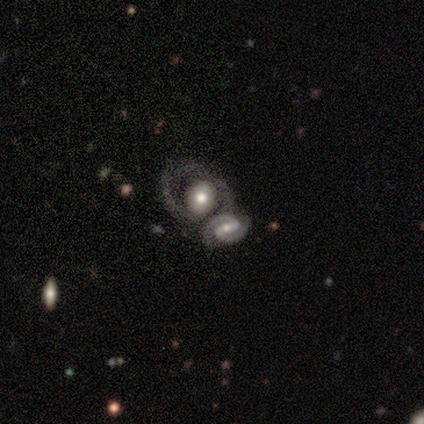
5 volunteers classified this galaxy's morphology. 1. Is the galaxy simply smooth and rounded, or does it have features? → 80% featured or disk, 20% smooth, 0% star or artifact.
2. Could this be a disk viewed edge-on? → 100% no, 0% yes.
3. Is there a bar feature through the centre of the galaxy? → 50% weak, 25% strong, 25% no.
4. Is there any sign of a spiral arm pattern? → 100% yes, 0% no.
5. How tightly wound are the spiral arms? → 50% medium, 25% tight, 25% loose.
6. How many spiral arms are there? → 50% 3, 25% 1, 25% 2, 0% 4, 0% more than 4, 0% can't tell.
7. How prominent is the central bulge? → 75% moderate, 25% large, 0% dominant, 0% small, 0% none.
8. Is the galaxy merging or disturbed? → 60% merger, 20% minor disturbance, 20% major disturbance, 0% none.